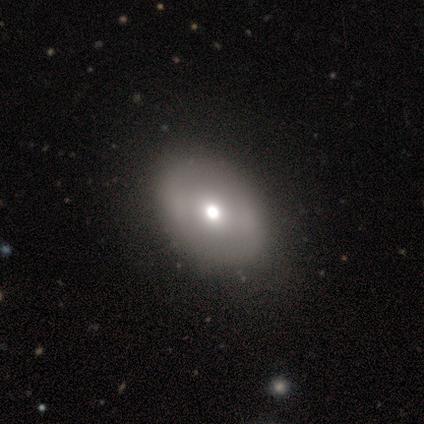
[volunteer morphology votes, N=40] smooth 70%, featured or disk 28%, star or artifact 2%. Down the decision tree: how rounded — round (54%); merging — none (72%).